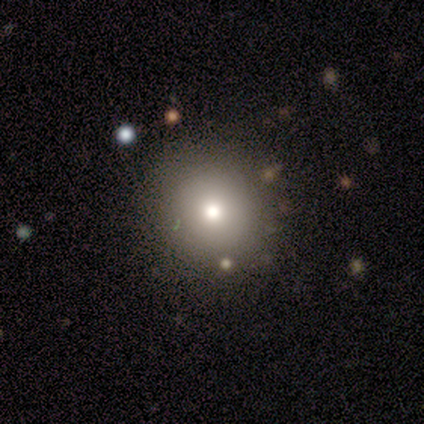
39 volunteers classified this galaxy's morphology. Volunteers were most divided on "merging": none: 76%, minor disturbance: 18%, major disturbance: 6%, merger: 0%. More confident: how rounded — round (93%); smooth or featured — smooth (74%).